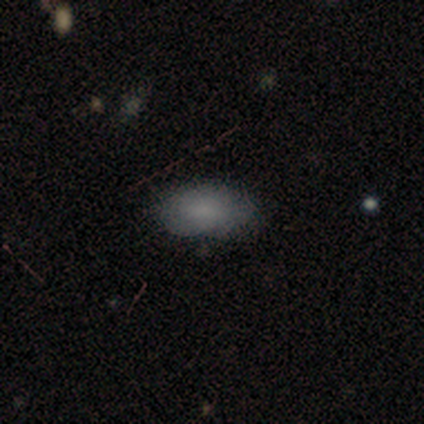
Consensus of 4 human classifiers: Consensus on every question: smooth or featured — smooth (100%); how rounded — in between (100%); merging — none (100%).